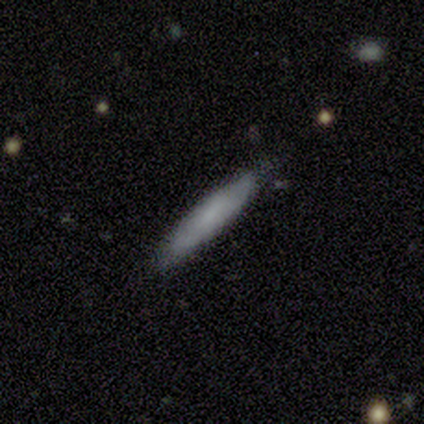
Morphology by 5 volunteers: Smooth or featured?
  - smooth: 100% *
  - featured or disk: 0%
  - star or artifact: 0%
How rounded?
  - cigar-shaped: 100% *
  - round: 0%
  - in between: 0%
Merging?
  - none: 60% *
  - minor disturbance: 40%
  - major disturbance: 0%
  - merger: 0%